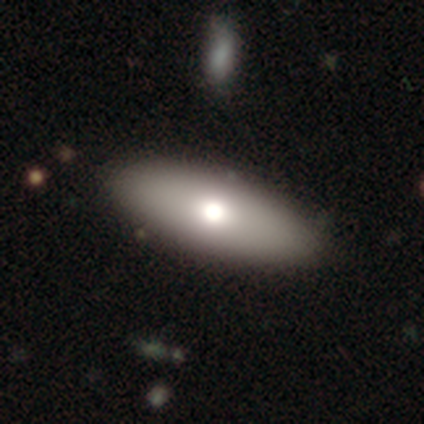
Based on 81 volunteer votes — smooth_or_featured: smooth (p=0.67) [alt: featured or disk p=0.26]
how_rounded: in between (p=0.80) [alt: cigar-shaped p=0.19]
merging: none (p=0.44) [alt: minor disturbance p=0.08]